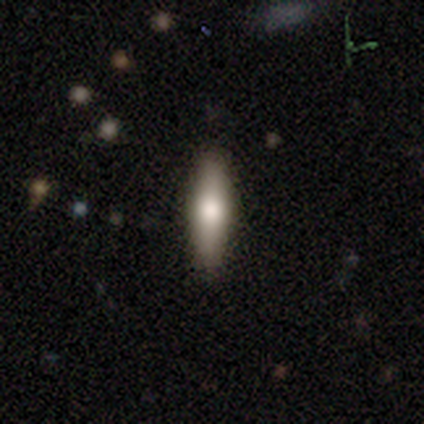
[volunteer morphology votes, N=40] Q: Smooth or featured?
A: smooth (65%); runner-up: featured or disk (22%)
Q: How rounded?
A: cigar-shaped (73%); runner-up: in between (27%)
Q: Merging?
A: none (89%); runner-up: minor disturbance (9%)